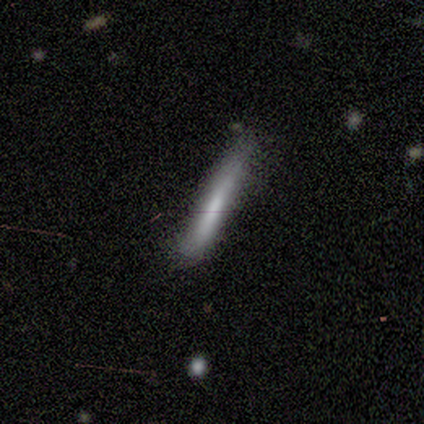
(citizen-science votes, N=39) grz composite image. It shows a smooth galaxy with no disk features (69%) that is cigar-shaped (100%). Merging: none (66%).